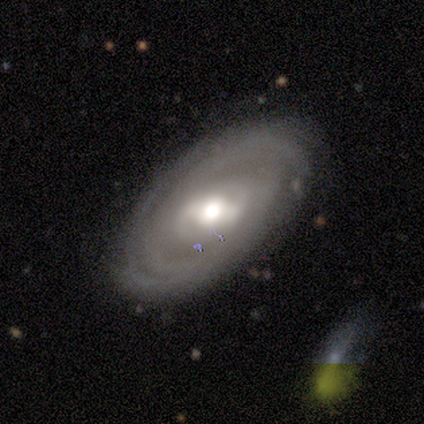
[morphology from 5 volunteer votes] Smooth or featured? 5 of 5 (100%) said featured or disk. Edge-on disk? 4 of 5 (80%) said no. Bar? 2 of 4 (50%) said weak. Spiral arms? 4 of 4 (100%) said yes. Spiral winding? 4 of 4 (100%) said tight. Spiral arm count? 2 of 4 (50%) said can't tell. Bulge size? 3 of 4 (75%) said moderate. Merging? 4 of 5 (80%) said none.